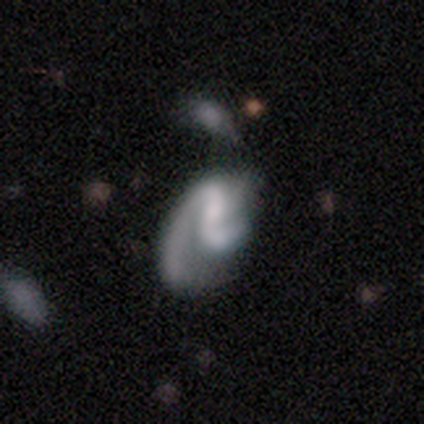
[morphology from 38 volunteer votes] Smooth or featured? 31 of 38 (82%) said featured or disk. Edge-on disk? 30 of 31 (97%) said no. Bar? 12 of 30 (40%) said weak. Spiral arms? 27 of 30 (90%) said yes. Spiral winding? 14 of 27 (52%) said medium. Spiral arm count? 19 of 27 (70%) said 2. Bulge size? 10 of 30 (33%, tied with none) said small. Merging? 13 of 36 (36%) said minor disturbance.